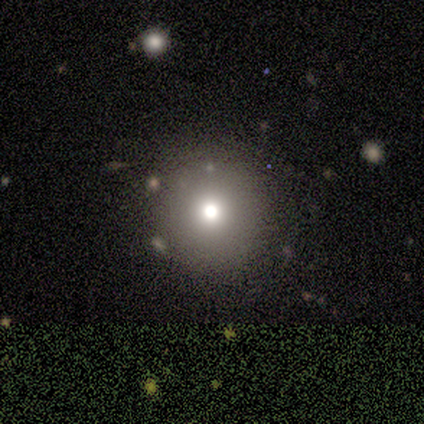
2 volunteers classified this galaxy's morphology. Q: Smooth or featured?
A: smooth (100%)
Q: How rounded?
A: round (100%)
Q: Merging?
A: none (50%); tied with: minor disturbance (50%)